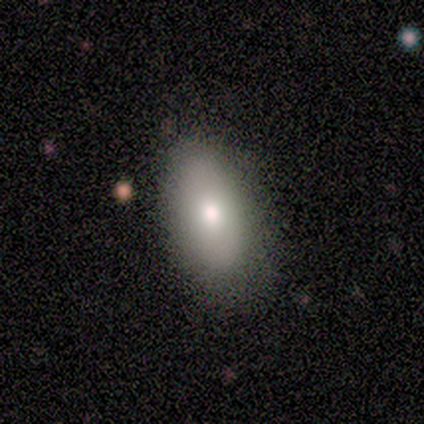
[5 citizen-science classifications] A smooth galaxy with no disk features (60%) that is in between round and cigar-shaped (100%).

Vote fractions:
- Smooth or featured? smooth: 60% / featured or disk: 40% / star or artifact: 0%
- How rounded? in between: 100% / round: 0% / cigar-shaped: 0%
- Merging? none: 60% / minor disturbance: 20% / major disturbance: 20% / merger: 0%